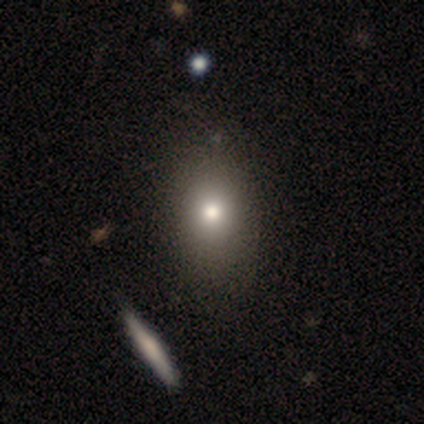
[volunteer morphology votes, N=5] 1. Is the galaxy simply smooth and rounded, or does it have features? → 100% smooth, 0% featured or disk, 0% star or artifact.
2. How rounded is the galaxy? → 80% round, 20% in between, 0% cigar-shaped.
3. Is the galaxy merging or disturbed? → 80% none, 20% minor disturbance, 0% major disturbance, 0% merger.